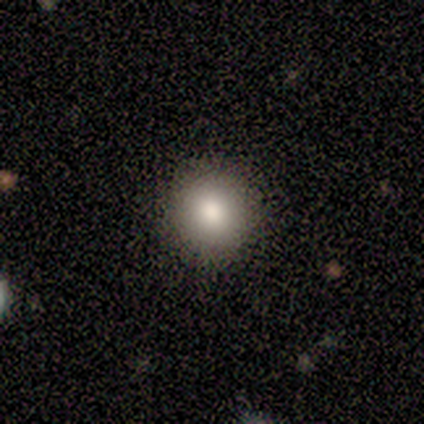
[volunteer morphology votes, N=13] Smooth or featured? smooth (85%)
How rounded? round (100%)
Merging? none (92%)